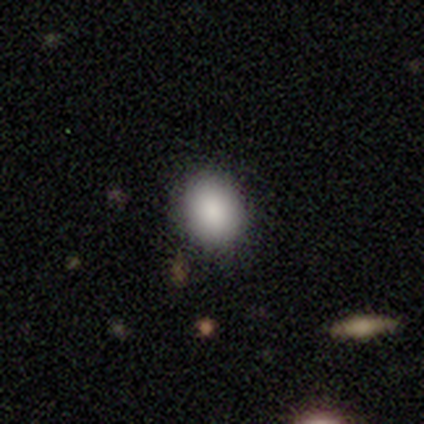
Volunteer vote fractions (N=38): Smooth or featured?
  - smooth: 87% *
  - featured or disk: 8%
  - star or artifact: 5%
How rounded?
  - round: 55% *
  - in between: 45%
  - cigar-shaped: 0%
Merging?
  - none: 83% *
  - minor disturbance: 17%
  - major disturbance: 0%
  - merger: 0%